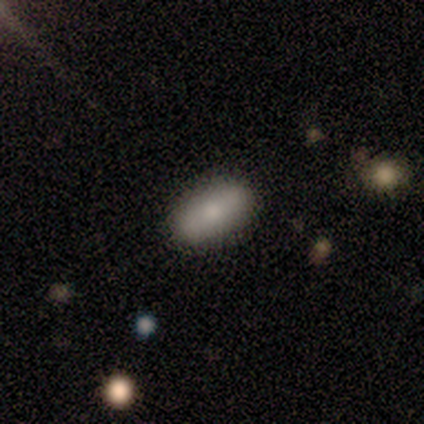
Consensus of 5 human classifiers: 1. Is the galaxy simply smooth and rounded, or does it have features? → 60% smooth, 40% featured or disk, 0% star or artifact.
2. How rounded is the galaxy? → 100% in between, 0% round, 0% cigar-shaped.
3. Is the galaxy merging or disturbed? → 100% none, 0% minor disturbance, 0% major disturbance, 0% merger.